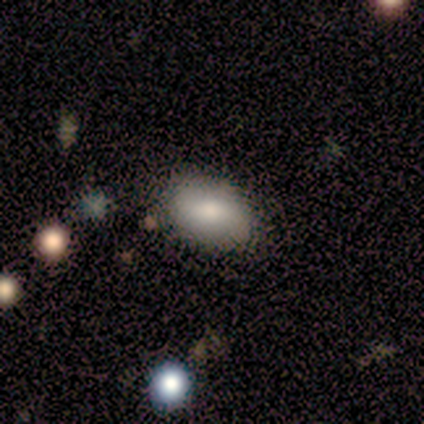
Volunteers were most divided on "smooth or featured": smooth: 60%, featured or disk: 20%, star or artifact: 20%. More confident: how rounded — in between (100%); merging — none (75%).